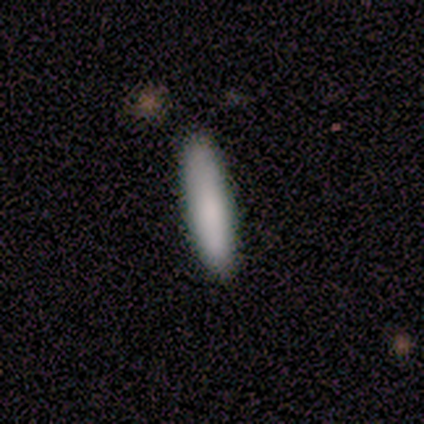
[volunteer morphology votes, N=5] A smooth galaxy with no disk features (100%) that is cigar-shaped (100%).

Vote fractions:
- Smooth or featured? smooth: 100% / featured or disk: 0% / star or artifact: 0%
- How rounded? cigar-shaped: 100% / round: 0% / in between: 0%
- Merging? none: 60% / minor disturbance: 20% / major disturbance: 20% / merger: 0%